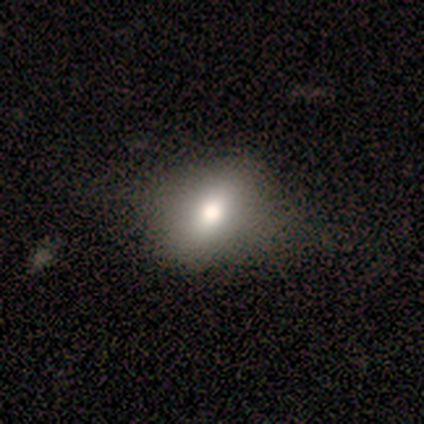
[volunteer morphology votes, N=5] Volunteers were most divided on "merging": none: 60%, minor disturbance: 40%, major disturbance: 0%, merger: 0%. More confident: smooth or featured — smooth (100%); how rounded — in between (80%).